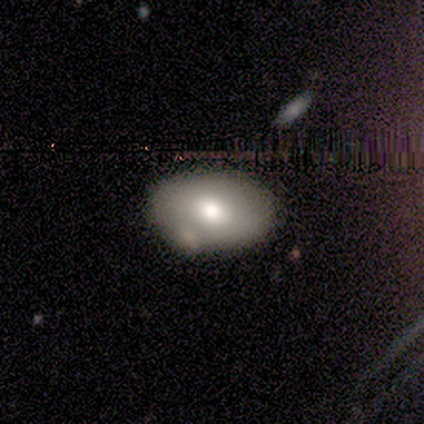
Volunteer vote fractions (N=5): Smooth or featured?
  - smooth: 60% *
  - featured or disk: 20%
  - star or artifact: 20%
How rounded?
  - in between: 67% *
  - round: 33%
  - cigar-shaped: 0%
Merging?
  - none: 50% *
  - minor disturbance: 25%
  - major disturbance: 25%
  - merger: 0%